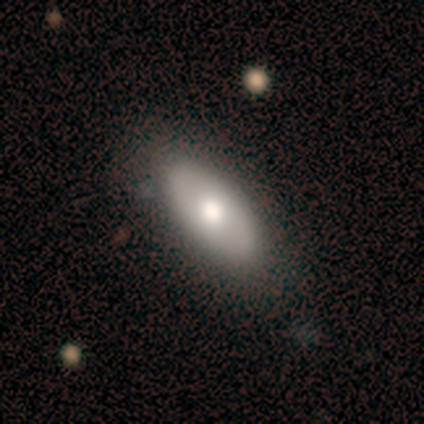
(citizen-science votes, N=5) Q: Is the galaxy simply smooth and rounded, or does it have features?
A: featured or disk — 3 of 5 (60%).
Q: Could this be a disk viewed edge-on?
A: no — 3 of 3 (100%).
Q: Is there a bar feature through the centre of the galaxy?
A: no — 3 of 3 (100%).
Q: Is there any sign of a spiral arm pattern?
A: no — 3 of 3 (100%).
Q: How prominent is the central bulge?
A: large — 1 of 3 (33%, tied with moderate and small).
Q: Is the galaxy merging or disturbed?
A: none — 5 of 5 (100%).